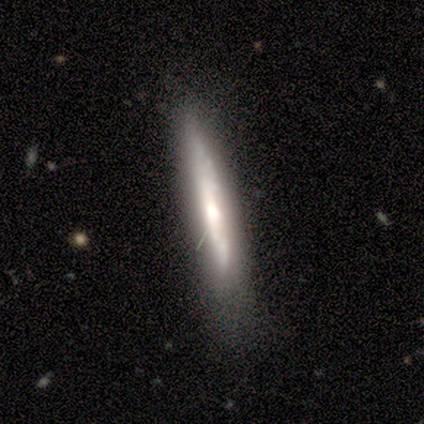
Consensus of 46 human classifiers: This appears to be a featured or disk galaxy (61%) viewed edge-on (68%) with a rounded central bulge (63%). Merging: none (62%).